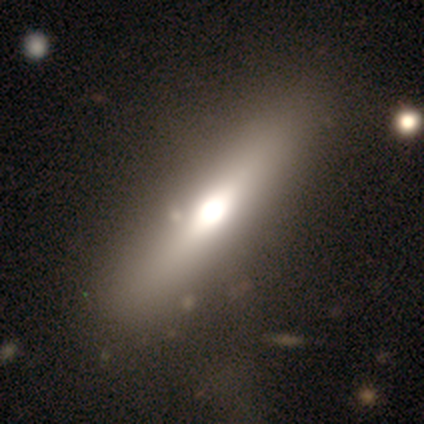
Volunteers were most divided on "bar" (2-way tie): strong: 50%, no: 50%, weak: 0%; "bulge size" (2-way tie): dominant: 50%, large: 50%, moderate: 0%, small: 0%, none: 0%. More confident: spiral arms — no (100%); merging — none (75%); edge-on disk — no (67%); smooth or featured — featured or disk (60%).